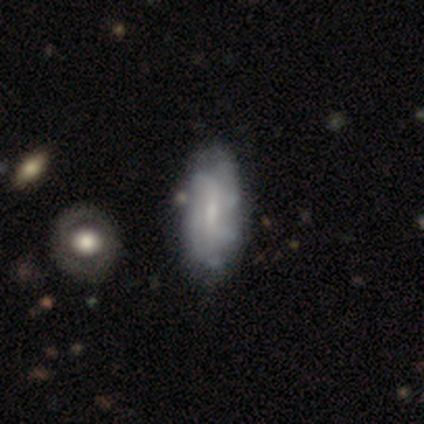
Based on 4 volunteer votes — This is likely a smooth galaxy (75%). How rounded: clearly in between (100%). Merging: possibly none (50%, tied with minor disturbance).